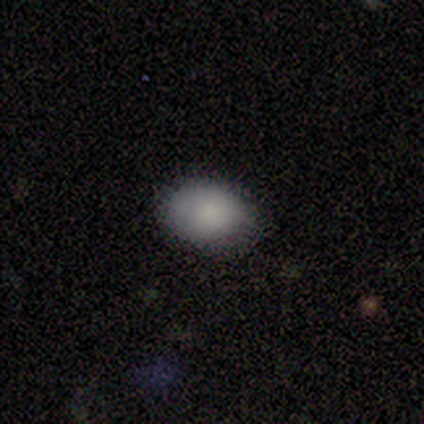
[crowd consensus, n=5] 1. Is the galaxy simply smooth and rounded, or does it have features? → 100% smooth, 0% featured or disk, 0% star or artifact.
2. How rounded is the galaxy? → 100% in between, 0% round, 0% cigar-shaped.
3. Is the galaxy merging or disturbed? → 80% none, 20% minor disturbance, 0% major disturbance, 0% merger.